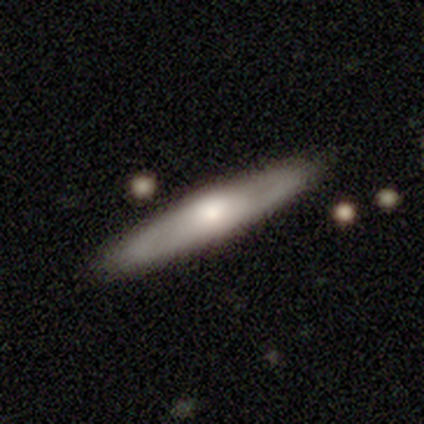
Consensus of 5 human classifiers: This is likely a smooth galaxy (60%). How rounded: likely cigar-shaped (67%). Merging: clearly none (80%).